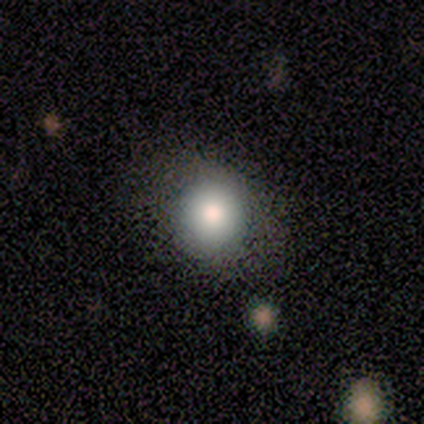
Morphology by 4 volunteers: smooth 75%, featured or disk 25%, star or artifact 0%. Down the decision tree: how rounded — round (67%); merging — none (100%).